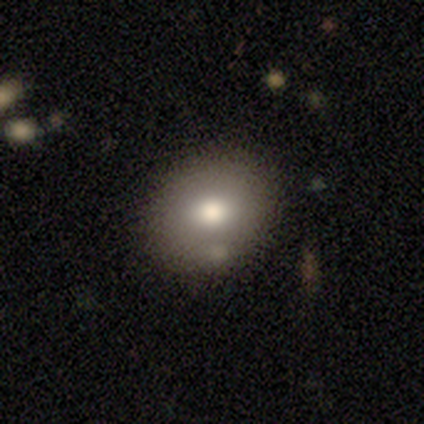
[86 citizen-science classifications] Volunteers were most divided on "how rounded": round: 65%, in between: 35%, cigar-shaped: 0%. More confident: merging — none (81%); smooth or featured — smooth (72%).